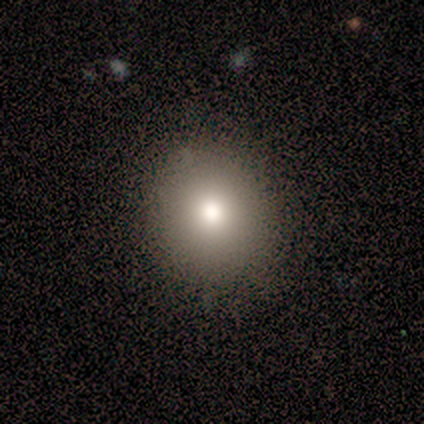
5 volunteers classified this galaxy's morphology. Smooth or featured? 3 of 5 (60%) said smooth. How rounded? 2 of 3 (67%) said in between. Merging? 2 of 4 (50%) said none.